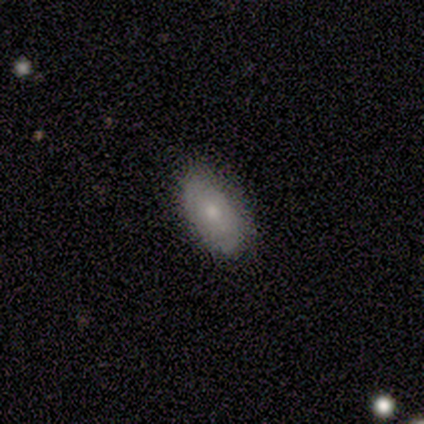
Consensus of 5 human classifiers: This is marginally a smooth galaxy (40%, tied with star or artifact). How rounded: possibly in between (50%, tied with cigar-shaped). Merging: likely none (67%).